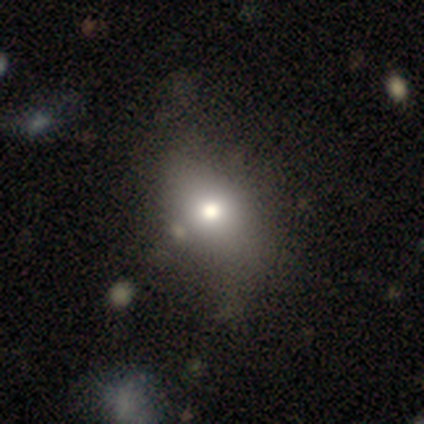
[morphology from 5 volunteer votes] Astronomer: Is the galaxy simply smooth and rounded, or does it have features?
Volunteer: smooth — 60%.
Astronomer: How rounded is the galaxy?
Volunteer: in between — 100%.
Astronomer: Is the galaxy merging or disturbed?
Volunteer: none — 75%.